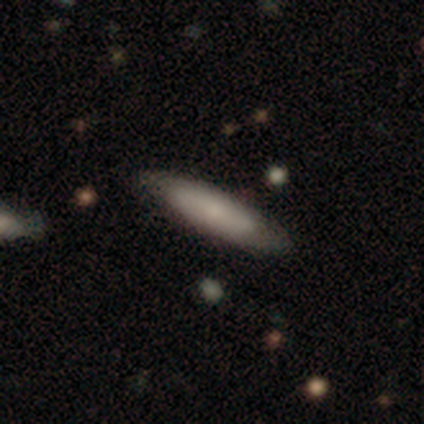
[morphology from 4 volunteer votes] Smooth or featured? smooth (100%)
How rounded? in between (50%, tied with cigar-shaped)
Merging? none (75%)